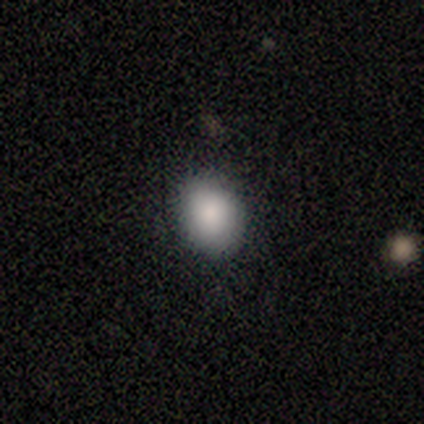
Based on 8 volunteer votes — A smooth galaxy with no disk features (75%) that is in between round and cigar-shaped (67%). Merging: none (83%).